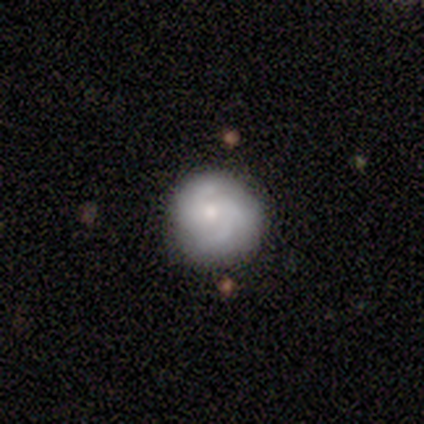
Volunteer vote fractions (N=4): smooth 75%, featured or disk 25%, star or artifact 0%. Down the decision tree: how rounded — round (100%); merging — none (100%).